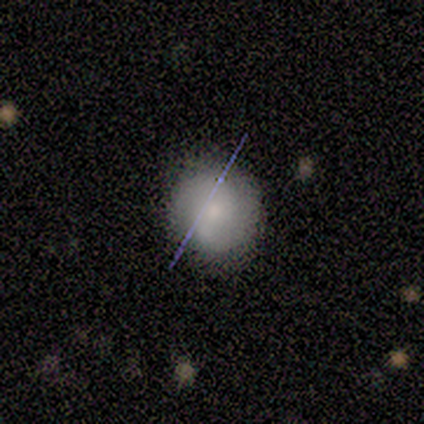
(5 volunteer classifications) Morphology: type=smooth (60%); roundness=round (100%); merging=none (100%).